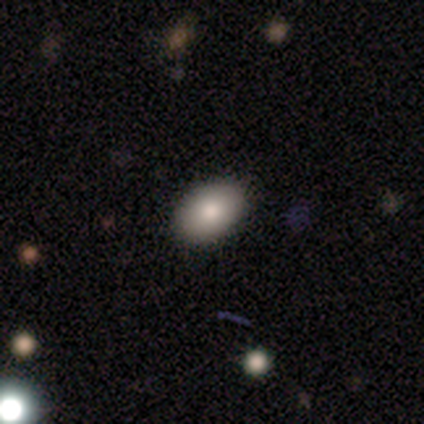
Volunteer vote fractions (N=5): This is clearly a smooth galaxy (100%). How rounded: clearly in between (100%). Merging: clearly none (100%).